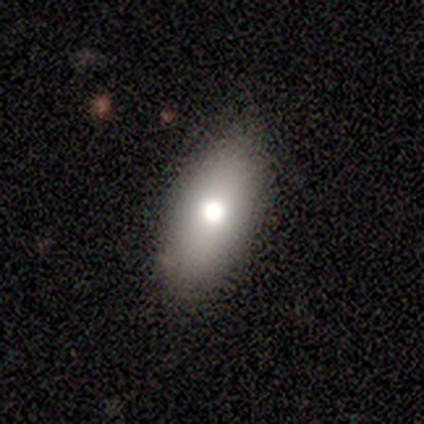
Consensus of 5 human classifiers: Smooth or featured: smooth — 40% (tied with star or artifact — 40%)
How rounded: in between — 100%
Merging: none — 67% (minor disturbance — 33%)